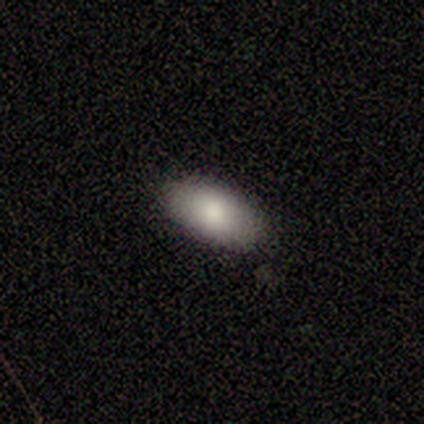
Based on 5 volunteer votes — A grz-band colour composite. It shows a smooth galaxy with no disk features (60%) that is in between round and cigar-shaped (100%). Merging: none (60%).